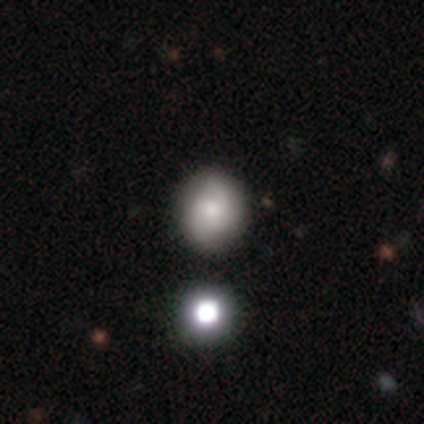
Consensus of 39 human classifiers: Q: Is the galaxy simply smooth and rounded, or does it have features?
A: smooth — 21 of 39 (54%).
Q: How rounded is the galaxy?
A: round — 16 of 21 (76%).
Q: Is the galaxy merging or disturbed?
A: none — 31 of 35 (89%).